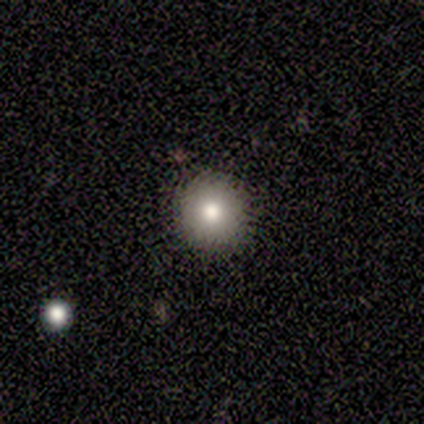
smooth-or-featured: smooth: 80% | featured or disk: 20% | star or artifact: 0%
  how-rounded: round: 100% | in between: 0% | cigar-shaped: 0%
  merging: none: 100% | minor disturbance: 0% | major disturbance: 0% | merger: 0%